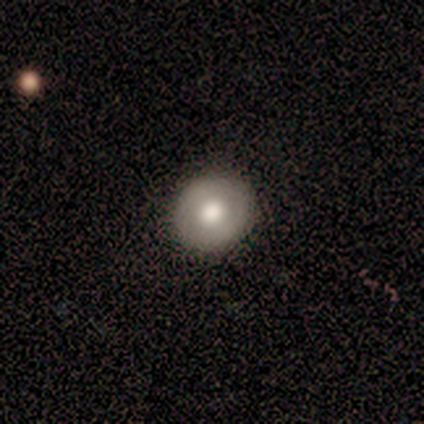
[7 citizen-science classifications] smooth_or_featured: featured or disk (p=0.57) [alt: smooth p=0.29]
disk_edge_on: no (p=1.00)
bar: no (p=1.00)
has_spiral_arms: no (p=1.00)
bulge_size: moderate (p=0.50) [alt: large p=0.25]
merging: none (p=0.83) [alt: merger p=0.17]